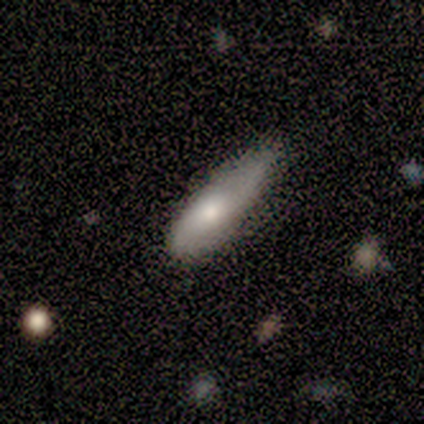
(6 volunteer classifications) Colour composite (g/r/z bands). It shows a smooth galaxy with no disk features (83%) that is cigar-shaped (60%). Merging: minor disturbance (67%).